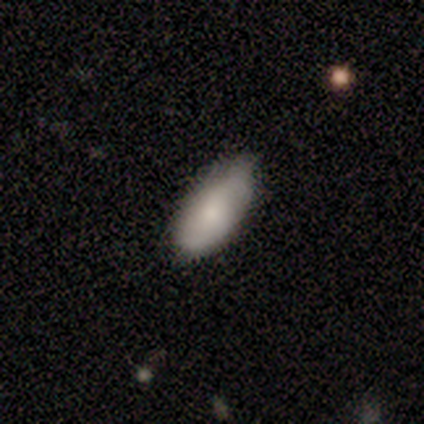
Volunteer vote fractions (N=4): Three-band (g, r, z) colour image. It shows a smooth galaxy with no disk features (50%) that is in between round and cigar-shaped (100%). Merging: none (67%).